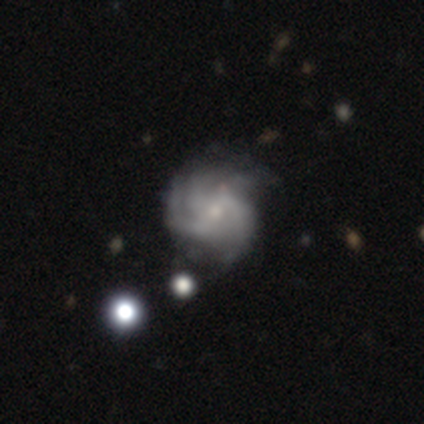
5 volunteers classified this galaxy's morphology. A featured or disk galaxy (100%) with a weak bar (60%), 3 (60%) tight (60%) spiral arms (100%) and a small central bulge (60%).

Vote fractions:
- Smooth or featured? featured or disk: 100% / smooth: 0% / star or artifact: 0%
- Edge-on disk? no: 100% / yes: 0%
- Bar? weak: 60% / no: 40% / strong: 0%
- Spiral arms? yes: 100% / no: 0%
- Spiral winding? tight: 60% / medium: 20% / loose: 20%
- Spiral arm count? 3: 60% / 2: 20% / can't tell: 20% / 1: 0% / 4: 0% / more than 4: 0%
- Bulge size? small: 60% / moderate: 40% / dominant: 0% / large: 0% / none: 0%
- Merging? none: 100% / minor disturbance: 0% / major disturbance: 0% / merger: 0%